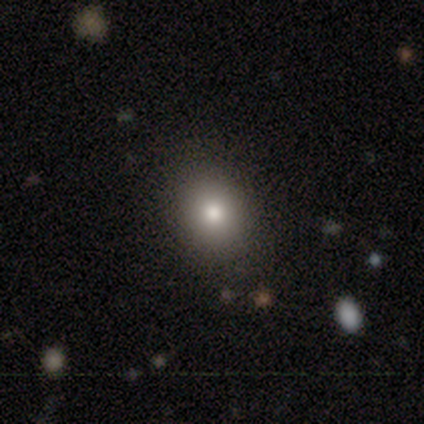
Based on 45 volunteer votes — Smooth or featured? 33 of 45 (73%) said smooth. How rounded? 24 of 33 (73%) said round. Merging? 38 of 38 (100%) said none.